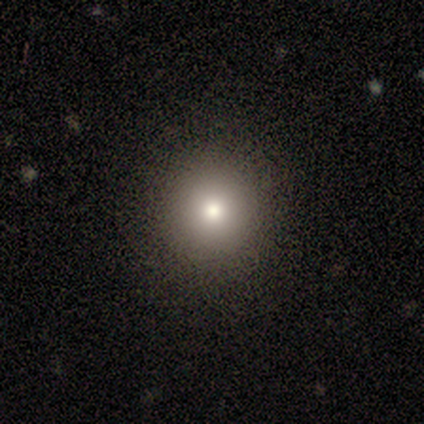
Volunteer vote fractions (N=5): Volunteers were most divided on "smooth or featured": smooth: 60%, featured or disk: 40%, star or artifact: 0%. More confident: how rounded — round (100%); merging — none (80%).